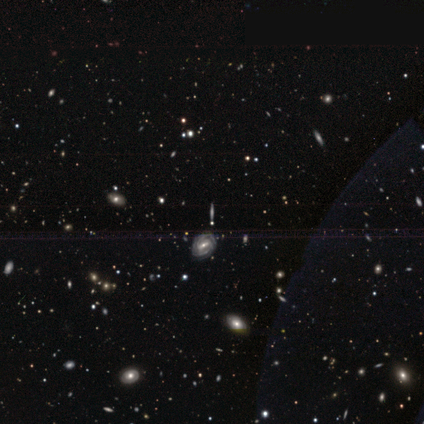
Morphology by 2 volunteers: A featured or disk galaxy (100%) with a strong bar (50%, tied with no), 2 (50%, tied with can't tell) tight (50%, tied with medium) spiral arms (100%) and a moderate central bulge (50%, tied with small). Merging: none (100%).